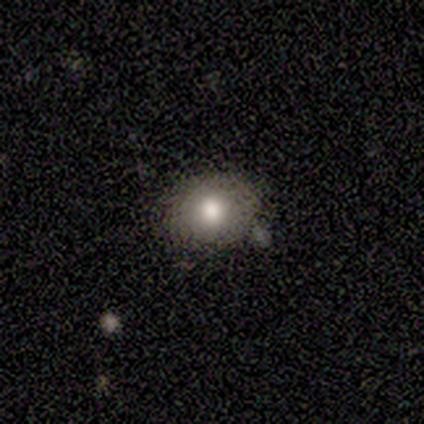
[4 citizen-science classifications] smooth_or_featured: smooth (p=0.75) [alt: star or artifact p=0.25]
how_rounded: round (p=0.67) [alt: in between p=0.33]
merging: minor disturbance (p=0.67) [alt: none p=0.33]